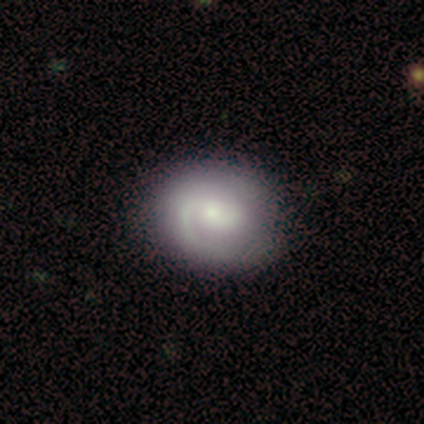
Morphology: type=featured or disk (100%); edge-on=no (100%); bar=weak (100%); spiral arms=yes (100%); winding=medium (100%); arm count=1 (100%); bulge=moderate (100%); merging=none (100%).